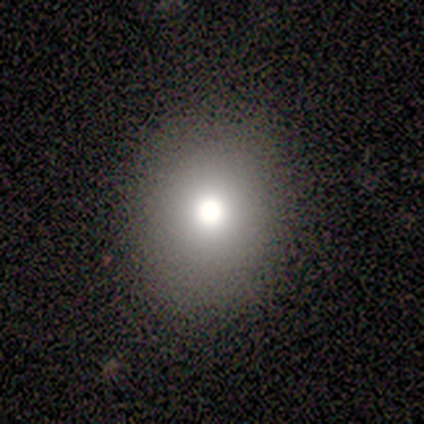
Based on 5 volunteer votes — smooth_or_featured: star or artifact (p=0.60) [alt: smooth p=0.40]